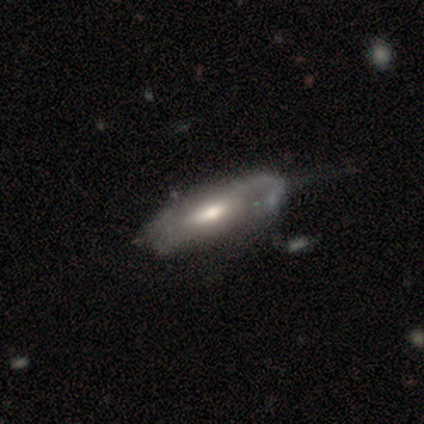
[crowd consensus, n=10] Smooth or featured?
  - featured or disk: 60% *
  - smooth: 20%
  - star or artifact: 20%
Edge-on disk?
  - yes: 67% *
  - no: 33%
Edge-on bulge?
  - rounded: 50% *
  - boxy: 25%
  - none: 25%
Merging?
  - minor disturbance: 38% *
  - none: 25%
  - major disturbance: 25%
  - merger: 12%